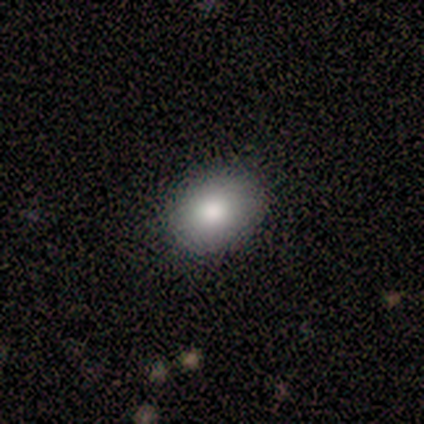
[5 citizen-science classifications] smooth 100%, featured or disk 0%, star or artifact 0%. Down the decision tree: how rounded — in between (60%); merging — none (100%).